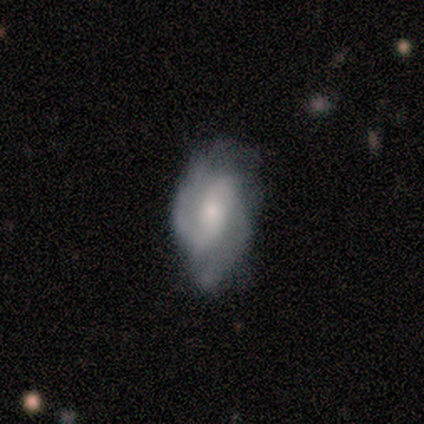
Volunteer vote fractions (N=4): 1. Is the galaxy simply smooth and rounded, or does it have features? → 50% smooth (tied), 50% featured or disk (tied), 0% star or artifact.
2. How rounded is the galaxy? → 100% in between, 0% round, 0% cigar-shaped.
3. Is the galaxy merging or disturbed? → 50% none (tied), 50% minor disturbance (tied), 0% major disturbance, 0% merger.